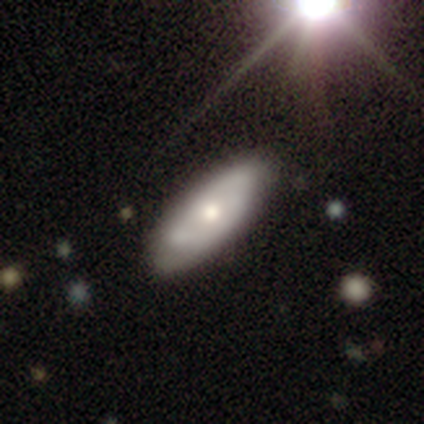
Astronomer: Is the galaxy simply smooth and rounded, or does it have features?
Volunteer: smooth — 51% (runner-up: featured or disk, 42%).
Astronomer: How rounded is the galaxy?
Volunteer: in between — 88%.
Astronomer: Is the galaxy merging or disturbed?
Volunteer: none — 33% (runner-up: minor disturbance, 15%).